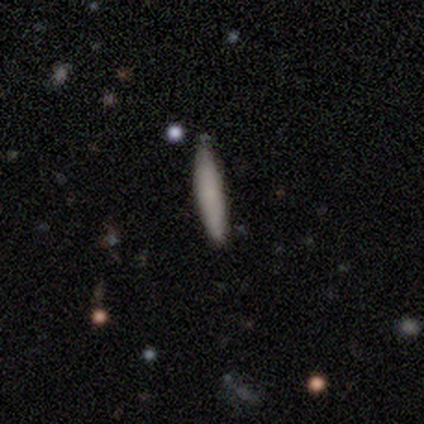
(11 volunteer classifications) Q: Smooth or featured?
A: smooth (73%); runner-up: featured or disk (27%)
Q: How rounded?
A: cigar-shaped (100%)
Q: Merging?
A: none (55%); runner-up: minor disturbance (45%)